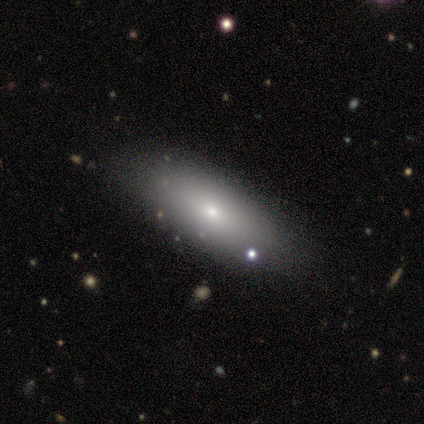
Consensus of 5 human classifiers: smooth-or-featured: smooth: 80% | star or artifact: 20% | featured or disk: 0%
  how-rounded: in between: 100% | round: 0% | cigar-shaped: 0%
  merging: none: 50% (tied) | minor disturbance: 50% (tied) | major disturbance: 0% | merger: 0%